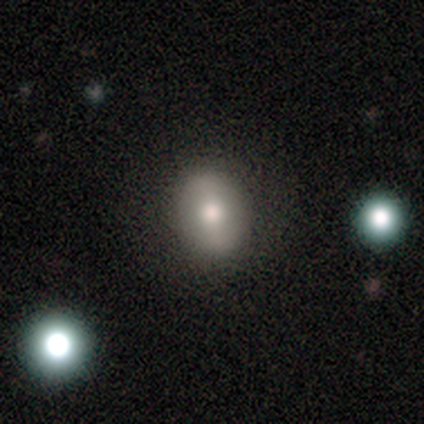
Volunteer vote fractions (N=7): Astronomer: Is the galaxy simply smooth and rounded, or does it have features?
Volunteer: smooth — 100%.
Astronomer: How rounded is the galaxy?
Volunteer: round — 57% (runner-up: in between, 43%).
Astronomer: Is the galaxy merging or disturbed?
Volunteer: none — 71%.